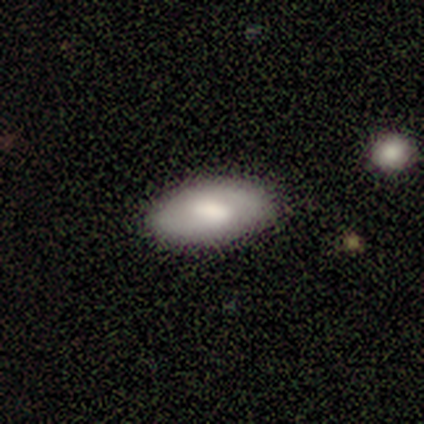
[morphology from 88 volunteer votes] smooth_or_featured: smooth (p=0.74) [alt: featured or disk p=0.23]
how_rounded: in between (p=0.94) [alt: cigar-shaped p=0.05]
merging: none (p=0.89) [alt: minor disturbance p=0.08]